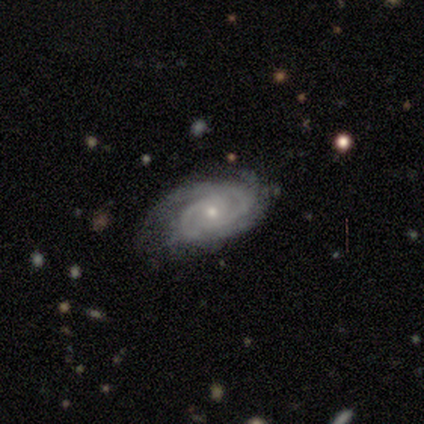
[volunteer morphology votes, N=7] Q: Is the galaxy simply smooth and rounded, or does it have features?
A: featured or disk — 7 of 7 (100%).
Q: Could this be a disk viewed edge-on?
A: no — 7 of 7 (100%).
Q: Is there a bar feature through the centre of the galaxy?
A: no — 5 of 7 (71%).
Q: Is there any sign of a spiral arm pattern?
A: yes — 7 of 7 (100%).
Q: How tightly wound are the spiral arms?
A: tight — 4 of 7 (57%).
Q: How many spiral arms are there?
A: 2 — 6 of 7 (86%).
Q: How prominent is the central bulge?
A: small — 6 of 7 (86%).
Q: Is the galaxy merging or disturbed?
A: none — 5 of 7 (71%).